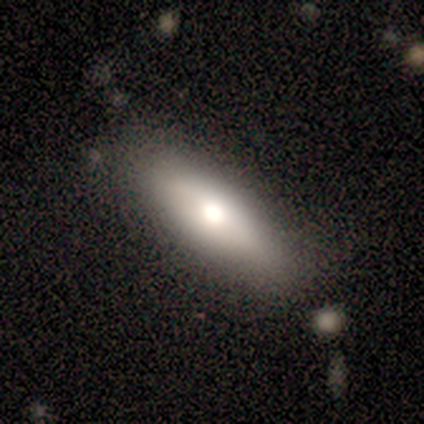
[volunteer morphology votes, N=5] A smooth galaxy with no disk features (80%) that is in between round and cigar-shaped (75%). Merging: none (100%).